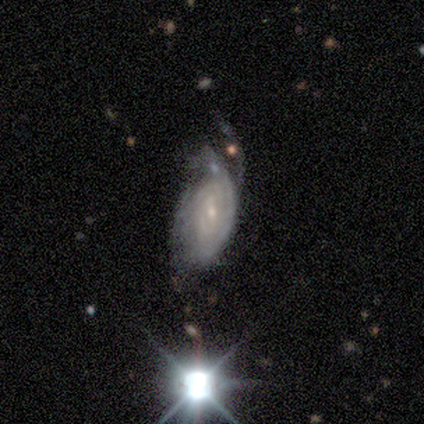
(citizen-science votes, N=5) Smooth or featured? 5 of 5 (100%) said featured or disk. Edge-on disk? 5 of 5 (100%) said no. Bar? 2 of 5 (40%, tied with no) said weak. Spiral arms? 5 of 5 (100%) said yes. Spiral winding? 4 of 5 (80%) said tight. Spiral arm count? 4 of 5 (80%) said can't tell. Bulge size? 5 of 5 (100%) said small. Merging? 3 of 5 (60%) said major disturbance.